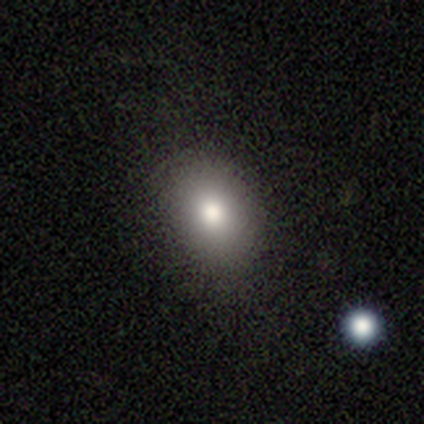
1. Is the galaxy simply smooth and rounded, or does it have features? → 71% smooth, 16% star or artifact, 13% featured or disk.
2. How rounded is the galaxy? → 67% in between, 33% round, 0% cigar-shaped.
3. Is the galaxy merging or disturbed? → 88% none, 12% minor disturbance, 0% major disturbance, 0% merger.